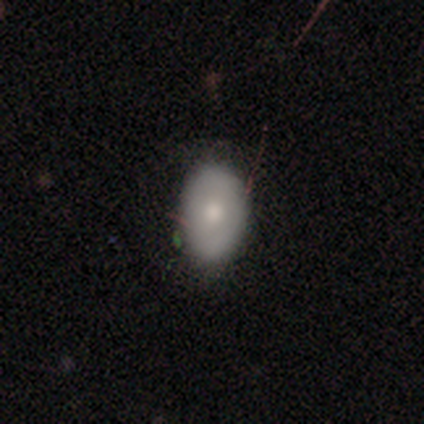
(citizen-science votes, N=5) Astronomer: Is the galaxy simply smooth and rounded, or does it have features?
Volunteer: smooth — 80%.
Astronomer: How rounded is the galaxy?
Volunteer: in between — 75%.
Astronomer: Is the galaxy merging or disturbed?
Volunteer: none — 80%.